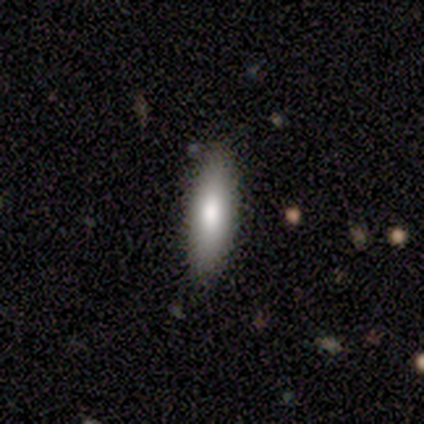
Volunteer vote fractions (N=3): Smooth or featured? smooth (67%)
How rounded? in between (50%, tied with cigar-shaped)
Merging? none (100%)